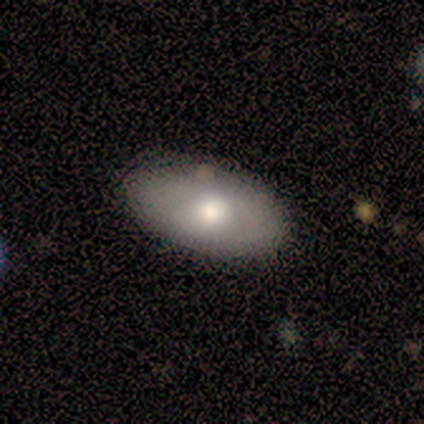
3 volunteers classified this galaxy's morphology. Smooth or featured? 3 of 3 (100%) said smooth. How rounded? 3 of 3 (100%) said in between. Merging? 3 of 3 (100%) said none.